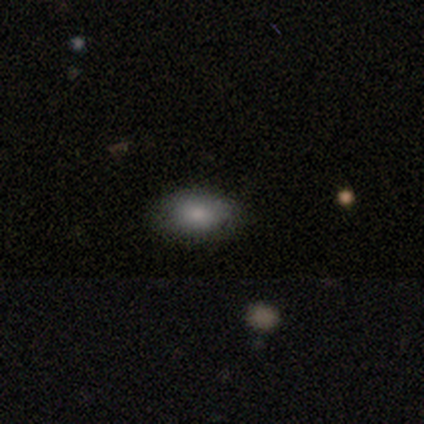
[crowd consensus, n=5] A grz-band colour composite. It shows a smooth galaxy with no disk features (80%) that is in between round and cigar-shaped (75%). Merging: none (80%).